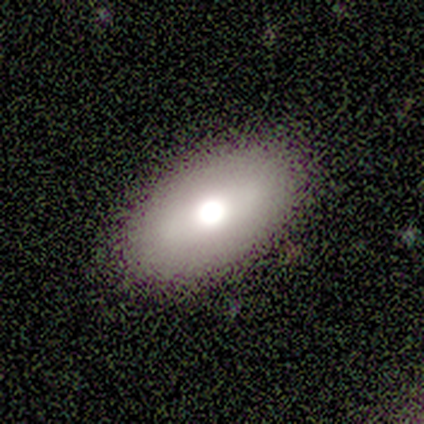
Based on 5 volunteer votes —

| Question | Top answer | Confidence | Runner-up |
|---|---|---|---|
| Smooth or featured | smooth | 60% | featured or disk (20%) |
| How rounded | in between | 67% | round (33%) |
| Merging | none | 75% | minor disturbance (25%) |